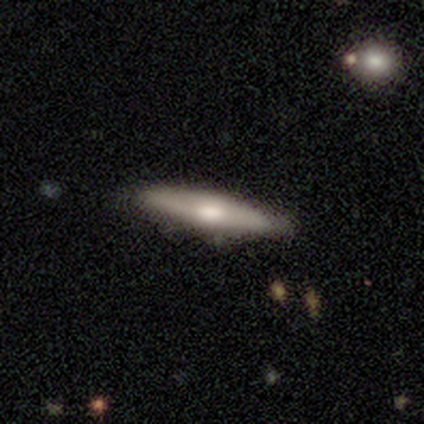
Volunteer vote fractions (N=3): Overall: featured or disk (100%). Edge-on disk: yes (100%). Edge-on bulge: rounded (100%). Merging: none (100%).